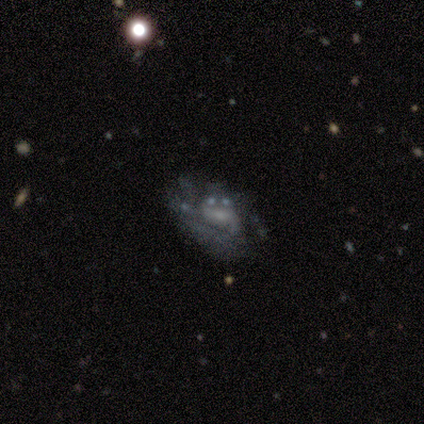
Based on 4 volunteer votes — A featured or disk galaxy (75%) with a weak bar (67%), no spiral arms (100%) and a small central bulge (67%). Merging: major disturbance (50%).